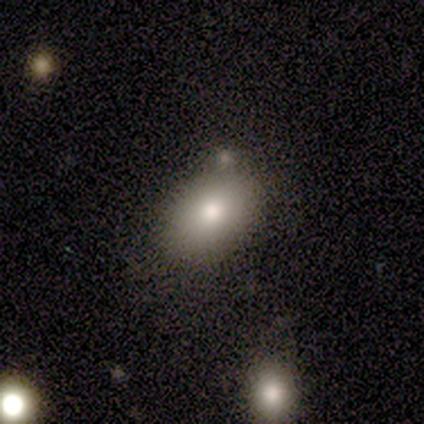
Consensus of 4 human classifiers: This appears to be a smooth galaxy with no disk features (75%) that is in between round and cigar-shaped (67%). Merging: none (75%).